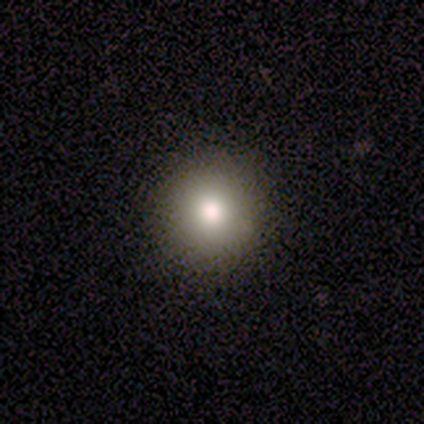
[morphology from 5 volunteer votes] Q: Smooth or featured?
A: smooth (60%); runner-up: featured or disk (20%)
Q: How rounded?
A: round (100%)
Q: Merging?
A: none (100%)